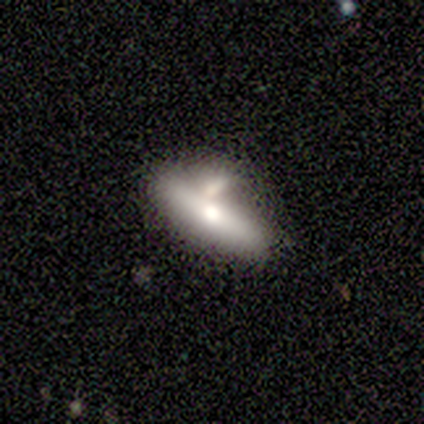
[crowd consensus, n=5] Smooth or featured? 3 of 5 (60%) said featured or disk. Edge-on disk? 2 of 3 (67%) said yes. Edge-on bulge? 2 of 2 (100%) said rounded. Merging? 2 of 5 (40%, tied with minor disturbance) said none.